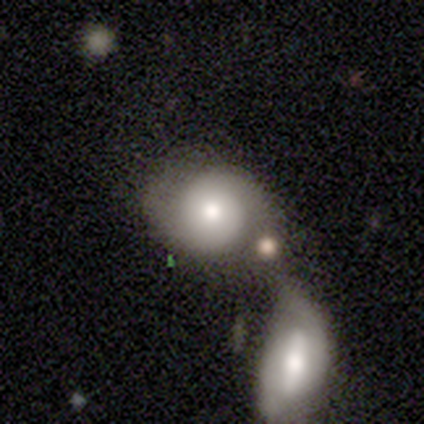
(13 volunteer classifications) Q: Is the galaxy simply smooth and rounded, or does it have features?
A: smooth — 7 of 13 (54%).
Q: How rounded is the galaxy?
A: round — 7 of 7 (100%).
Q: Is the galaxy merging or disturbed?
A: merger — 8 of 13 (62%).